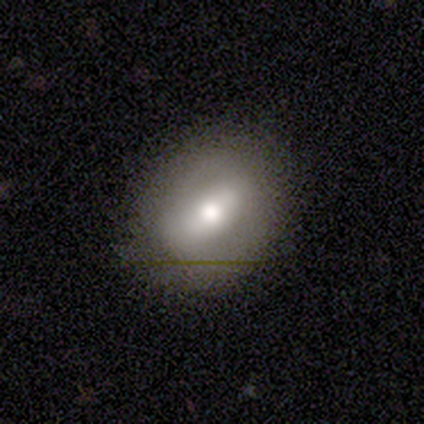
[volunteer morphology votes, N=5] Q: Smooth or featured?
A: featured or disk (60%); runner-up: smooth (40%)
Q: Edge-on disk?
A: no (100%)
Q: Bar?
A: strong (33%); tied with: weak (33%); no (33%)
Q: Spiral arms?
A: no (67%); runner-up: yes (33%)
Q: Bulge size?
A: moderate (67%); runner-up: small (33%)
Q: Merging?
A: none (100%)